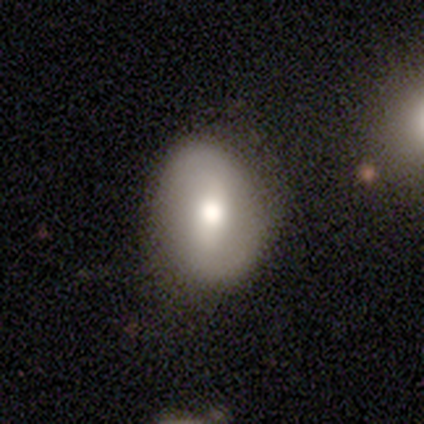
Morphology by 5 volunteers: featured or disk 60%, smooth 20%, star or artifact 20%. Down the decision tree: edge-on disk — no (100%); bar — weak (67%); spiral arms — yes (67%); spiral arm count — 2 (100%); spiral winding — loose (100%); bulge size — moderate (67%); merging — none (100%).